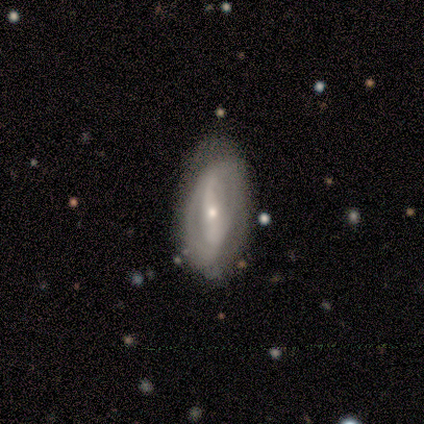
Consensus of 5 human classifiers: A featured or disk galaxy (80%) with a strong bar (50%, tied with no), 1 (50%, tied with 2) loose (100%) spiral arms (50%, tied with no) and a small central bulge (50%). Merging: none (80%).